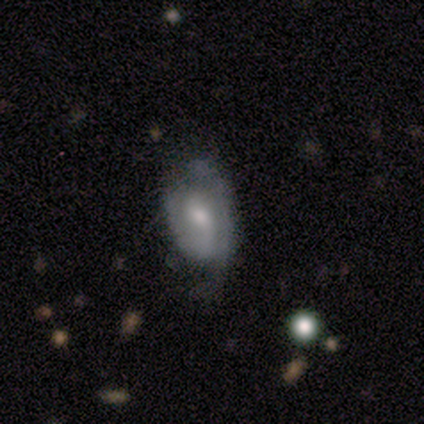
Smooth or featured: featured or disk — 60% (smooth — 40%)
Edge-on disk: no — 100%
Bar: weak — 67% (no — 33%)
Spiral arms: yes — 67% (no — 33%)
Spiral winding: medium — 100%
Spiral arm count: 2 — 100%
Bulge size: moderate — 67% (small — 33%)
Merging: minor disturbance — 80% (none — 20%)